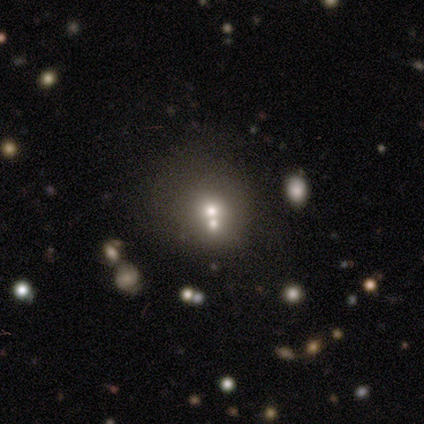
smooth 60%, star or artifact 40%, featured or disk 0%. Down the decision tree: how rounded — round (100%); merging — none (67%).